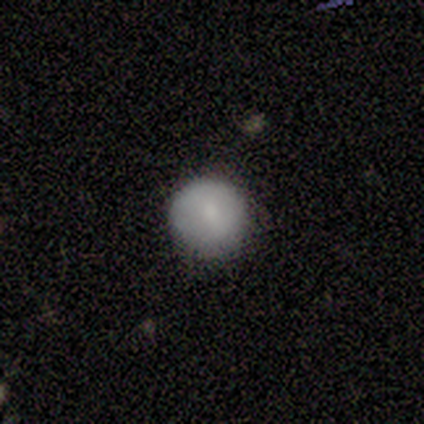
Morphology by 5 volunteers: A smooth galaxy with no disk features (80%) that is round (100%).

Vote fractions:
- Smooth or featured? smooth: 80% / star or artifact: 20% / featured or disk: 0%
- How rounded? round: 100% / in between: 0% / cigar-shaped: 0%
- Merging? none: 100% / minor disturbance: 0% / major disturbance: 0% / merger: 0%